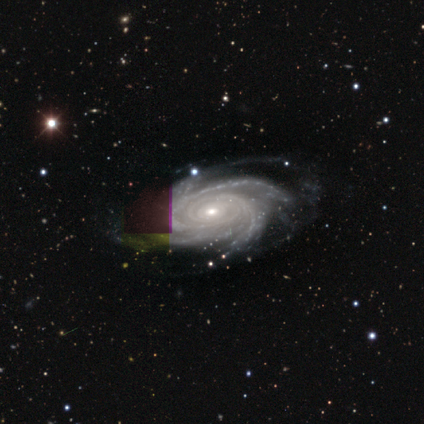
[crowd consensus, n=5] A featured or disk galaxy (100%) with no bar (100%), 4 (60%) tight (100%) spiral arms (100%) and a moderate central bulge (40%, tied with small).

Vote fractions:
- Smooth or featured? featured or disk: 100% / smooth: 0% / star or artifact: 0%
- Edge-on disk? no: 100% / yes: 0%
- Bar? no: 100% / strong: 0% / weak: 0%
- Spiral arms? yes: 100% / no: 0%
- Spiral winding? tight: 100% / medium: 0% / loose: 0%
- Spiral arm count? 4: 60% / 3: 20% / more than 4: 20% / 1: 0% / 2: 0% / can't tell: 0%
- Bulge size? moderate: 40% (tied) / small: 40% (tied) / large: 20% / dominant: 0% / none: 0%
- Merging? none: 60% / minor disturbance: 20% / major disturbance: 20% / merger: 0%